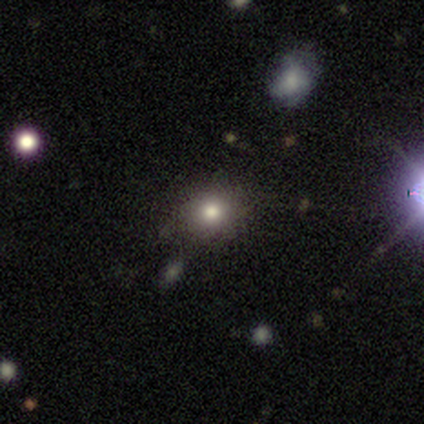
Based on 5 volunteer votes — smooth 40% (tied), featured or disk 40% (tied), star or artifact 20%. Down the decision tree: how rounded — round (50%, tied with in between); merging — none (75%).